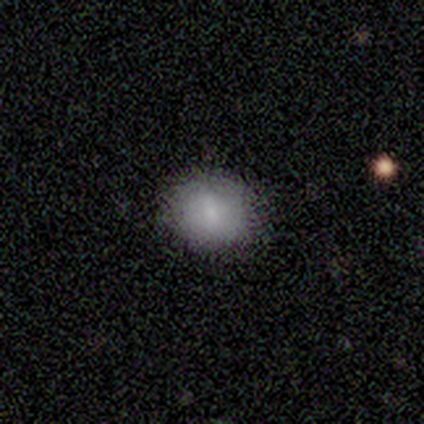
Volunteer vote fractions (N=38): Smooth or featured: smooth — 76% (star or artifact — 13%)
How rounded: round — 72% (in between — 28%)
Merging: none — 88% (minor disturbance — 6%)